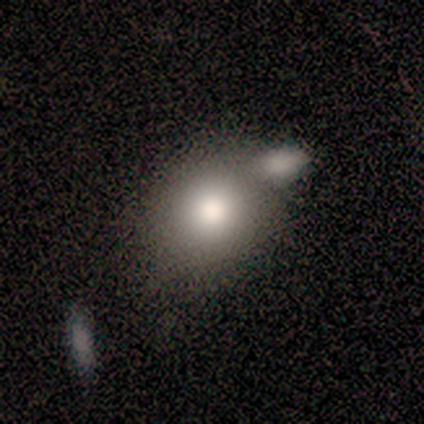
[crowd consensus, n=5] A smooth galaxy with no disk features (60%) that is round (67%).

Vote fractions:
- Smooth or featured? smooth: 60% / featured or disk: 20% / star or artifact: 20%
- How rounded? round: 67% / in between: 33% / cigar-shaped: 0%
- Merging? none: 75% / merger: 25% / minor disturbance: 0% / major disturbance: 0%